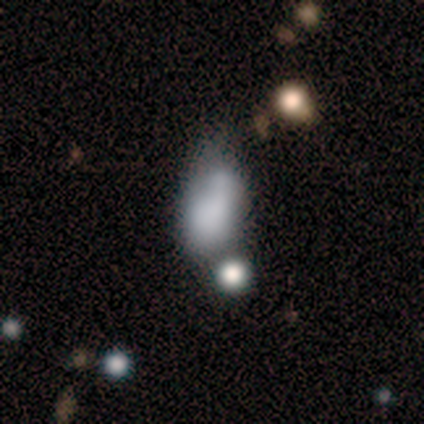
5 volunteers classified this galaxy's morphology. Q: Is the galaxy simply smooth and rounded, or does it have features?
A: smooth — 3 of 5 (60%).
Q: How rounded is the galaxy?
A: in between — 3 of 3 (100%).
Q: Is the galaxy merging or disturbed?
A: minor disturbance — 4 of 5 (80%).